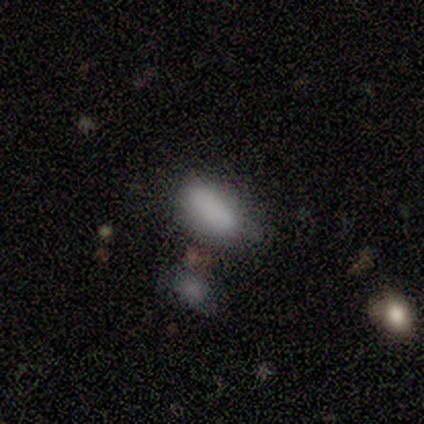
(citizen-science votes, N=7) Smooth or featured? smooth (100%)
How rounded? in between (100%)
Merging? none (86%)